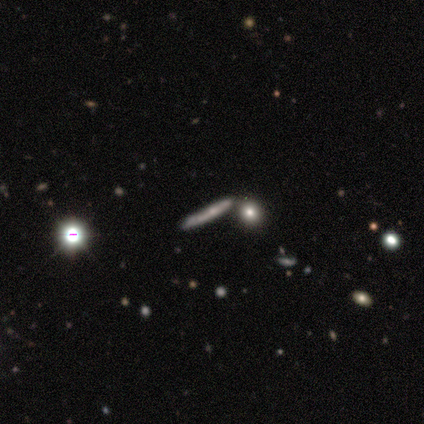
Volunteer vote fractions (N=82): Morphology: type=featured or disk (59%); edge-on=yes (88%); edge-on bulge=none (60%); merging=none (68%).